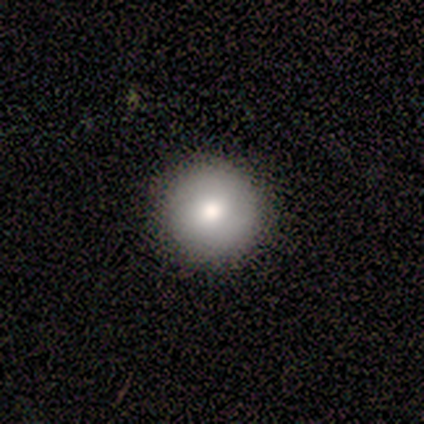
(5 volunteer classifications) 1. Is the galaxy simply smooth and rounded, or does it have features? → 60% smooth, 40% featured or disk, 0% star or artifact.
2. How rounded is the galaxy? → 100% round, 0% in between, 0% cigar-shaped.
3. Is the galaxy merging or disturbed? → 100% none, 0% minor disturbance, 0% major disturbance, 0% merger.